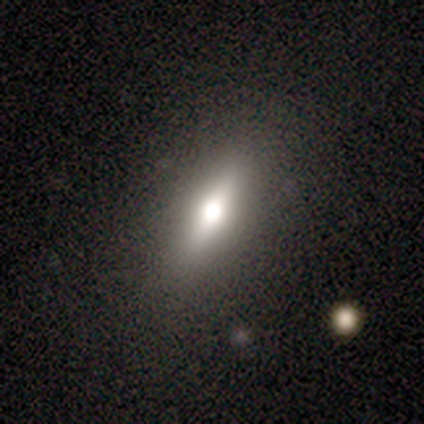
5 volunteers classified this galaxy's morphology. This appears to be a smooth galaxy with no disk features (60%) that is in between round and cigar-shaped (67%). Merging: none (80%).